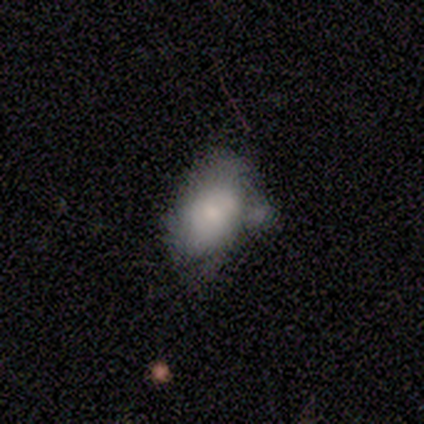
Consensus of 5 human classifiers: smooth_or_featured: smooth (p=1.00)
how_rounded: in between (p=1.00)
merging: minor disturbance (p=0.60) [alt: major disturbance p=0.20]